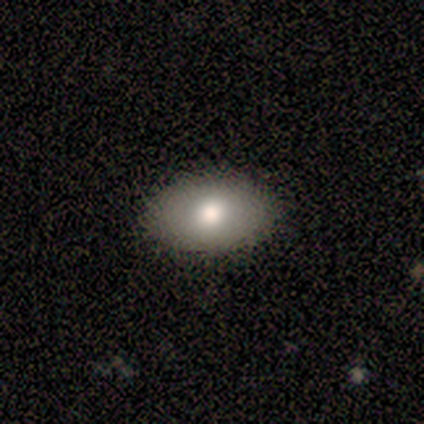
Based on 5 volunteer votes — Smooth or featured? smooth (80%)
How rounded? in between (100%)
Merging? none (100%)